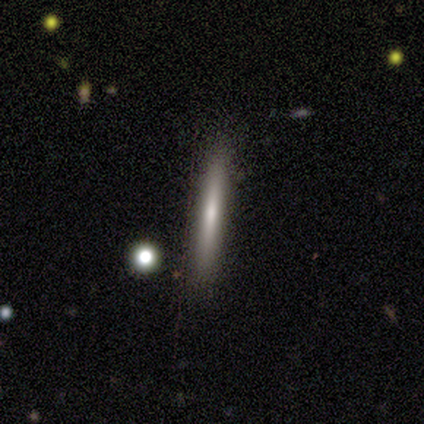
smooth 75%, featured or disk 25%, star or artifact 0%. Down the decision tree: how rounded — cigar-shaped (100%); merging — none (100%).